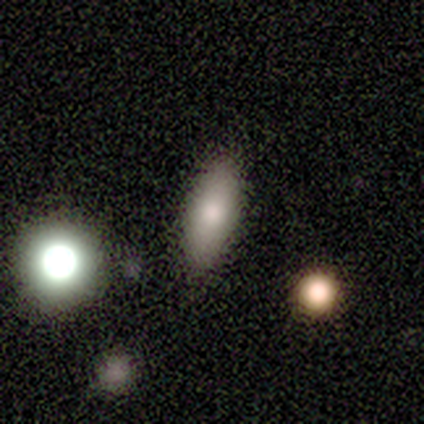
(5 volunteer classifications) This appears to be a smooth galaxy with no disk features (80%) that is in between round and cigar-shaped (75%). Merging: none (100%).